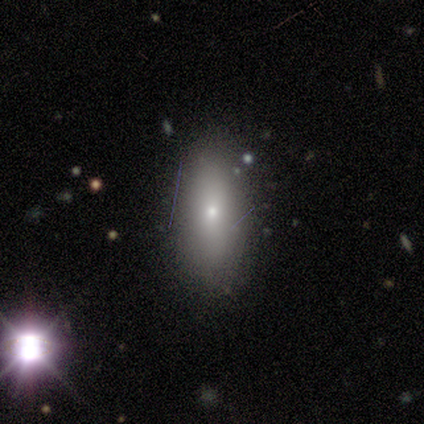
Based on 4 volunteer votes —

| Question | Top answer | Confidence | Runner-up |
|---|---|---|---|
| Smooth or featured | smooth | 50% | tied: star or artifact (50%) |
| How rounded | in between | 50% | tied: cigar-shaped (50%) |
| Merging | none | 100% | — |